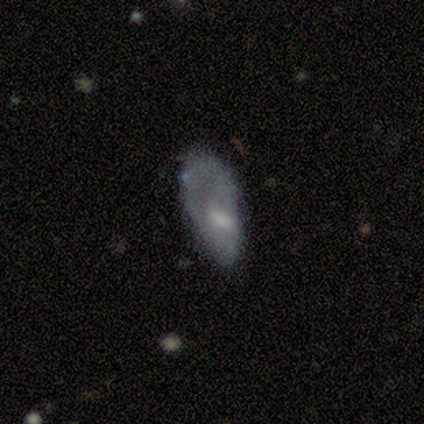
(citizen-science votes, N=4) Q: Smooth or featured?
A: featured or disk (75%); runner-up: smooth (25%)
Q: Edge-on disk?
A: no (100%)
Q: Bar?
A: no (67%); runner-up: weak (33%)
Q: Spiral arms?
A: no (67%); runner-up: yes (33%)
Q: Bulge size?
A: small (67%); runner-up: none (33%)
Q: Merging?
A: none (25%); tied with: minor disturbance (25%); major disturbance (25%); merger (25%)